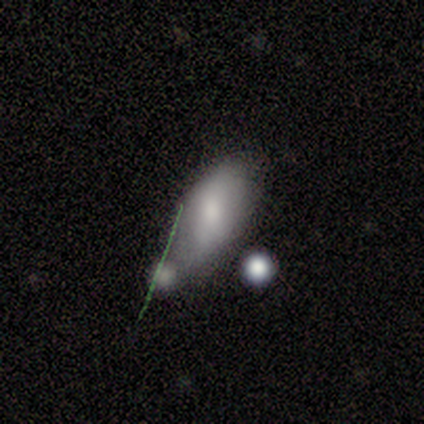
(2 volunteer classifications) Overall: smooth (50%, tied with featured or disk). How rounded: in between (100%). Merging: none (50%, tied with minor disturbance).